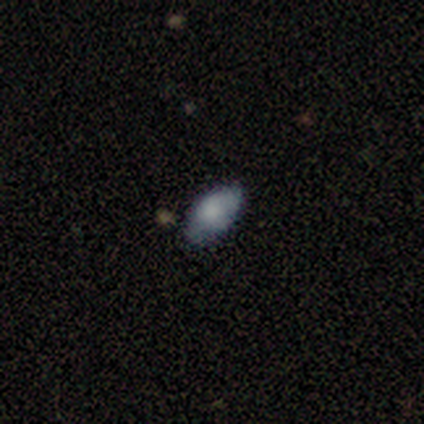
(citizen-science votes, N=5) Smooth or featured?
  - smooth: 60% *
  - featured or disk: 40%
  - star or artifact: 0%
How rounded?
  - in between: 100% *
  - round: 0%
  - cigar-shaped: 0%
Merging?
  - none: 80% *
  - minor disturbance: 20%
  - major disturbance: 0%
  - merger: 0%